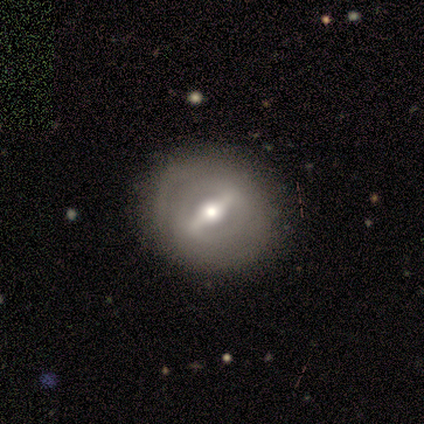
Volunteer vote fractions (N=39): This is clearly a featured or disk galaxy (85%). It is clearly not viewed edge-on (91%). Bar: clearly strong (97%). Spiral arm pattern: likely yes (60%). Spiral arm count: possibly can't tell (56%). Spiral winding: likely tight (72%). Central bulge: likely moderate (67%). Merging: possibly none (55%).